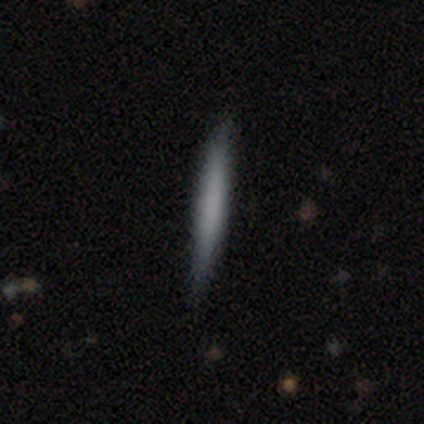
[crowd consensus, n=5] A smooth galaxy with no disk features (100%) that is cigar-shaped (100%).

Vote fractions:
- Smooth or featured? smooth: 100% / featured or disk: 0% / star or artifact: 0%
- How rounded? cigar-shaped: 100% / round: 0% / in between: 0%
- Merging? none: 100% / minor disturbance: 0% / major disturbance: 0% / merger: 0%